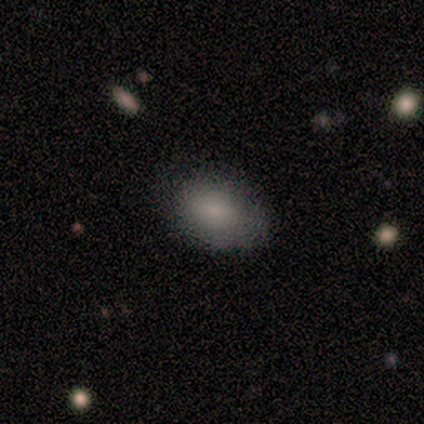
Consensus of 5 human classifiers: Smooth or featured? 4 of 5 (80%) said smooth. How rounded? 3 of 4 (75%) said in between. Merging? 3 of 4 (75%) said none.